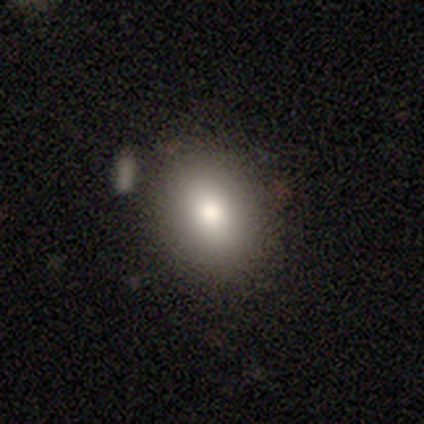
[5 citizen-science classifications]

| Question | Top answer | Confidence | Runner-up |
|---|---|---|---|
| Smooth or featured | smooth | 80% | featured or disk (20%) |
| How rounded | in between | 75% | round (25%) |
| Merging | none | 100% | — |